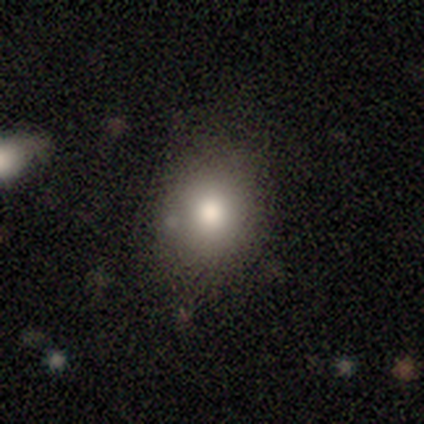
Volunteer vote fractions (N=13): Smooth or featured?
  - smooth: 69% *
  - featured or disk: 23%
  - star or artifact: 8%
How rounded?
  - round: 67% *
  - in between: 33%
  - cigar-shaped: 0%
Merging?
  - none: 100% *
  - minor disturbance: 0%
  - major disturbance: 0%
  - merger: 0%